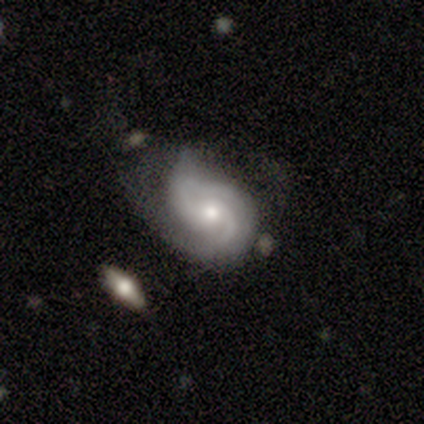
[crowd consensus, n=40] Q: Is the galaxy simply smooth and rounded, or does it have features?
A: featured or disk — 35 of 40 (88%).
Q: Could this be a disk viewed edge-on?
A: no — 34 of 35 (97%).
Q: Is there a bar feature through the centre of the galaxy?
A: no — 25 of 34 (74%).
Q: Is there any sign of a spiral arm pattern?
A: yes — 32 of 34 (94%).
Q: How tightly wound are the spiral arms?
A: medium — 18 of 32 (56%).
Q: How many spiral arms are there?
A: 2 — 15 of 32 (47%).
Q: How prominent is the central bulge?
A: moderate — 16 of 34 (47%, tied with small).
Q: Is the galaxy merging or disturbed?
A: none — 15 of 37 (41%).